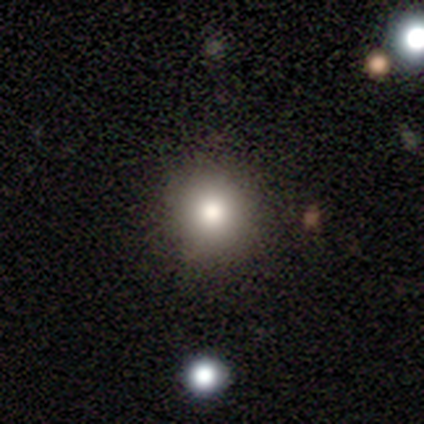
A smooth galaxy with no disk features (80%) that is round (100%).

Vote fractions:
- Smooth or featured? smooth: 80% / featured or disk: 20% / star or artifact: 0%
- How rounded? round: 100% / in between: 0% / cigar-shaped: 0%
- Merging? none: 100% / minor disturbance: 0% / major disturbance: 0% / merger: 0%